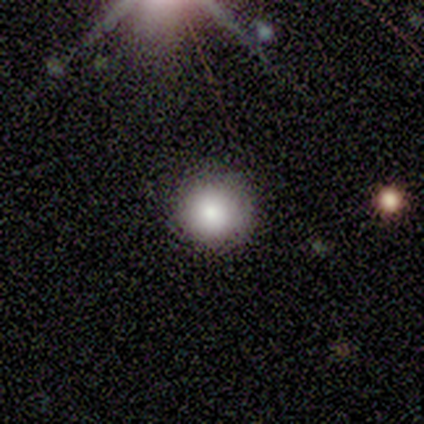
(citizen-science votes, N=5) Smooth or featured? smooth (100%)
How rounded? round (80%)
Merging? none (100%)